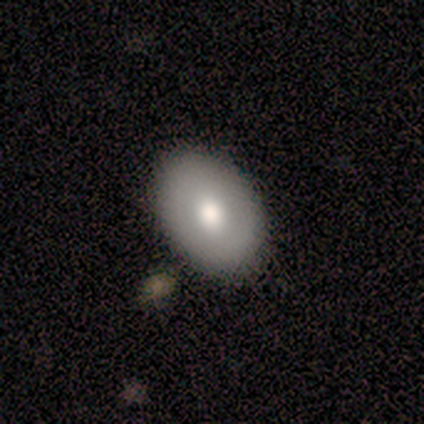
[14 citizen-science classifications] Overall: smooth (86%). How rounded: in between (75%). Merging: none (86%).